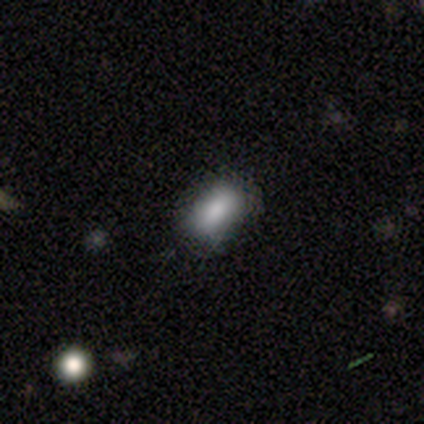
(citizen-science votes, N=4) smooth-or-featured: smooth: 50% (tied) | star or artifact: 50% (tied) | featured or disk: 0%
  how-rounded: in between: 100% | round: 0% | cigar-shaped: 0%
  merging: none: 100% | minor disturbance: 0% | major disturbance: 0% | merger: 0%